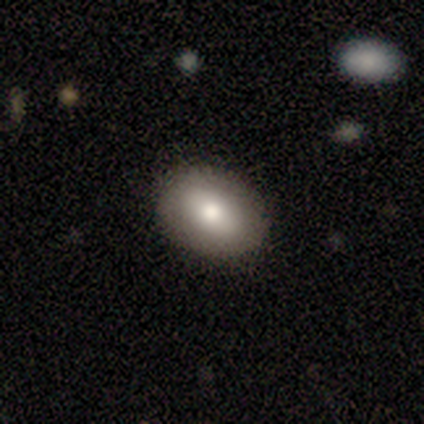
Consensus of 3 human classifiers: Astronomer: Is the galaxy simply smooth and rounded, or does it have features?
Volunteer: smooth — 100%.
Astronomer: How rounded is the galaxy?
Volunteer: in between — 100%.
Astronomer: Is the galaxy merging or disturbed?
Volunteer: none — 100%.